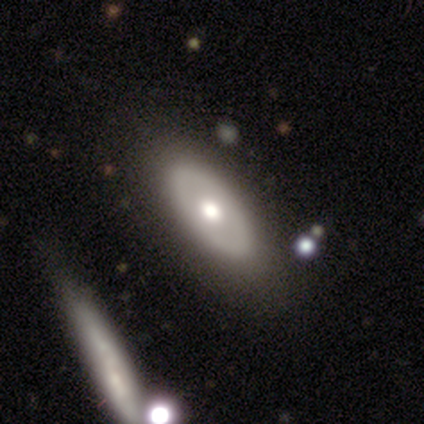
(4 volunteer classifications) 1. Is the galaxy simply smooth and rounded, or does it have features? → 50% smooth (tied), 50% featured or disk (tied), 0% star or artifact.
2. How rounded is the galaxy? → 100% in between, 0% round, 0% cigar-shaped.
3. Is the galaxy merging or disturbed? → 75% none, 25% minor disturbance, 0% major disturbance, 0% merger.